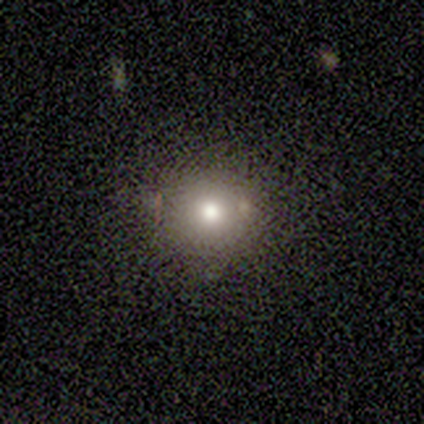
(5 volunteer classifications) Volunteers were most divided on "merging": none: 75%, minor disturbance: 25%, major disturbance: 0%, merger: 0%. More confident: how rounded — round (100%); smooth or featured — smooth (80%).